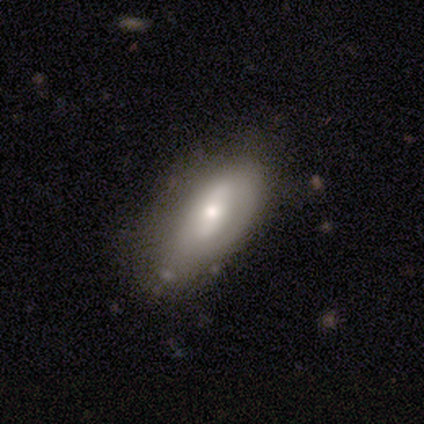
Smooth or featured?
  - smooth: 80% *
  - featured or disk: 20%
  - star or artifact: 0%
How rounded?
  - in between: 75% *
  - cigar-shaped: 25%
  - round: 0%
Merging?
  - none: 100% *
  - minor disturbance: 0%
  - major disturbance: 0%
  - merger: 0%